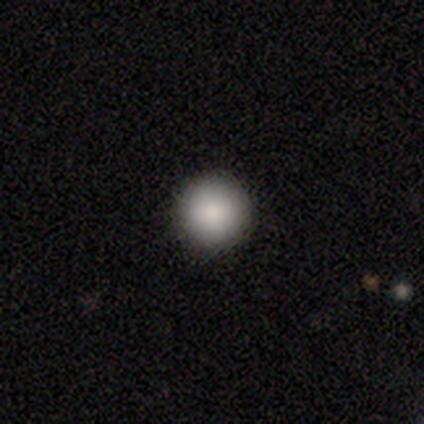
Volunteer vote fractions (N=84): smooth-or-featured: smooth: 89% | featured or disk: 7% | star or artifact: 4%
  how-rounded: round: 99% | in between: 1% | cigar-shaped: 0%
  merging: none: 91% | minor disturbance: 5% | merger: 2% | major disturbance: 1%